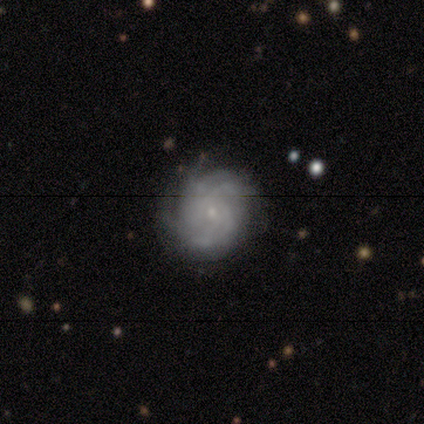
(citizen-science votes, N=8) featured or disk 62%, smooth 25%, star or artifact 12%. Down the decision tree: edge-on disk — no (100%); bar — no (60%); spiral arms — yes (100%); spiral arm count — more than 4 (60%); spiral winding — tight (60%); bulge size — small (100%); merging — none (71%).